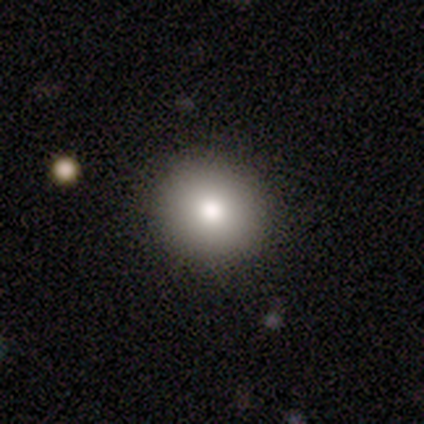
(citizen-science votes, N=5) Volunteers were most divided on "how rounded": round: 80%, in between: 20%, cigar-shaped: 0%. More confident: smooth or featured — smooth (100%); merging — none (100%).